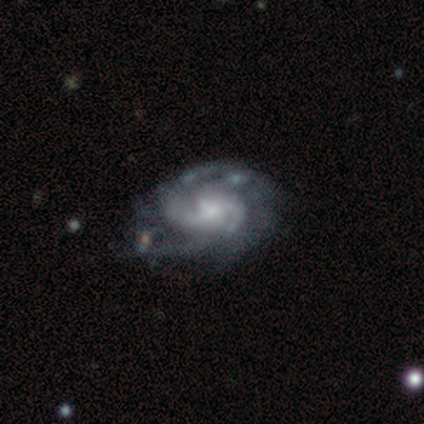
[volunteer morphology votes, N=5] smooth_or_featured: featured or disk (p=1.00)
disk_edge_on: no (p=1.00)
bar: no (p=0.60) [alt: weak p=0.40]
has_spiral_arms: yes (p=1.00)
spiral_winding: medium (p=1.00)
spiral_arm_count: 2 (p=0.40) [tied with: 4 p=0.40]
bulge_size: moderate (p=0.40) [tied with: small p=0.40]
merging: none (p=0.60) [alt: minor disturbance p=0.20]